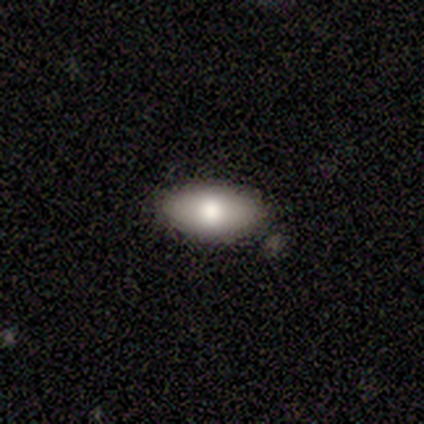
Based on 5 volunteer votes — smooth-or-featured: smooth: 60% | featured or disk: 20% | star or artifact: 20%
  how-rounded: in between: 100% | round: 0% | cigar-shaped: 0%
  merging: none: 75% | merger: 25% | minor disturbance: 0% | major disturbance: 0%